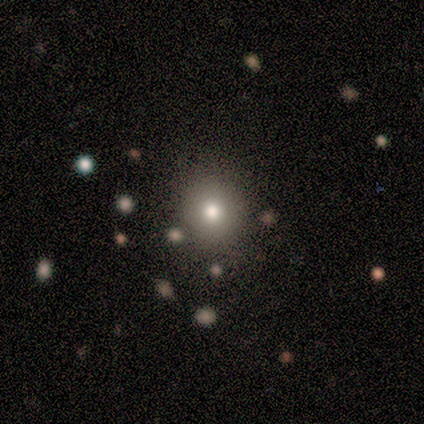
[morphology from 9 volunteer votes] Volunteers were most divided on "smooth or featured": smooth: 78%, star or artifact: 22%, featured or disk: 0%. More confident: how rounded — round (86%); merging — none (86%).